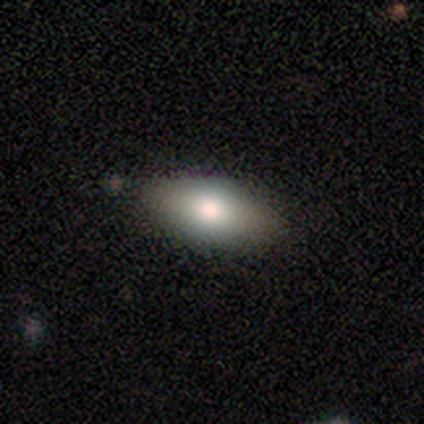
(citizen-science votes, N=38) smooth 76%, featured or disk 21%, star or artifact 3%. Down the decision tree: how rounded — in between (100%); merging — none (81%).